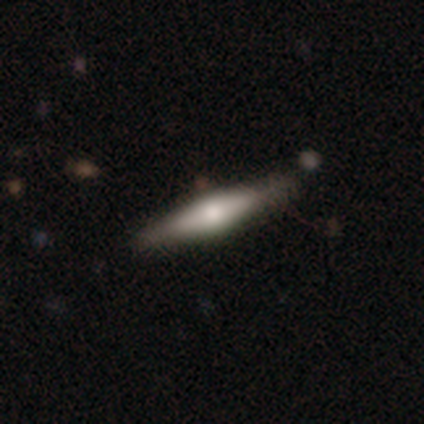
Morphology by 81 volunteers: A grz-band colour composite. It shows a featured or disk galaxy (58%) viewed edge-on (96%) with a rounded central bulge (87%). Merging: none (42%).